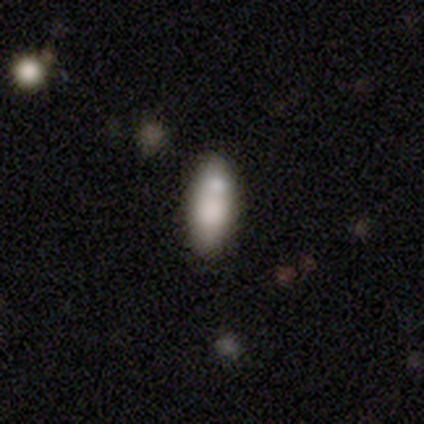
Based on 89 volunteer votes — Smooth or featured? smooth (80%)
How rounded? in between (75%)
Merging? none (73%)